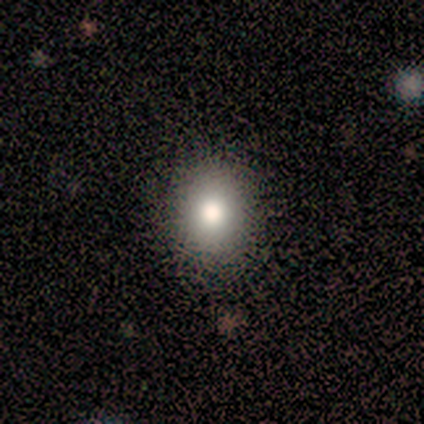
Smooth or featured?
  - smooth: 80% *
  - star or artifact: 20%
  - featured or disk: 0%
How rounded?
  - in between: 100% *
  - round: 0%
  - cigar-shaped: 0%
Merging?
  - none: 100% *
  - minor disturbance: 0%
  - major disturbance: 0%
  - merger: 0%